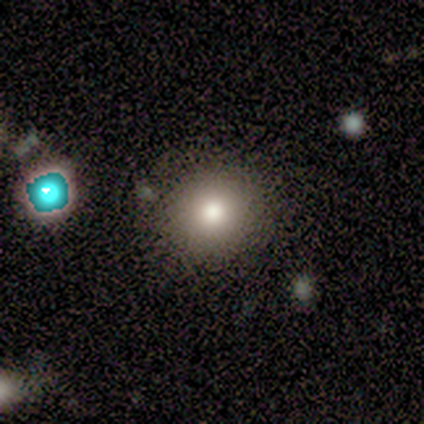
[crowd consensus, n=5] Q: Smooth or featured?
A: smooth (60%); runner-up: featured or disk (40%)
Q: How rounded?
A: round (100%)
Q: Merging?
A: none (80%); runner-up: minor disturbance (20%)